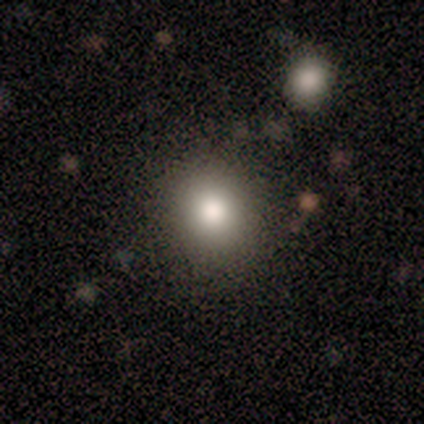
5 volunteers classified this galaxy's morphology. Volunteers were most divided on "merging" (2-way tie): none: 50%, merger: 50%, minor disturbance: 0%, major disturbance: 0%. More confident: how rounded — in between (67%); smooth or featured — smooth (60%).